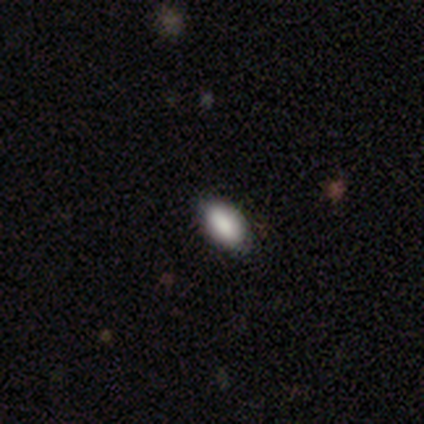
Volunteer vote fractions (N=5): This is clearly a smooth galaxy (100%). How rounded: clearly in between (80%). Merging: clearly none (100%).